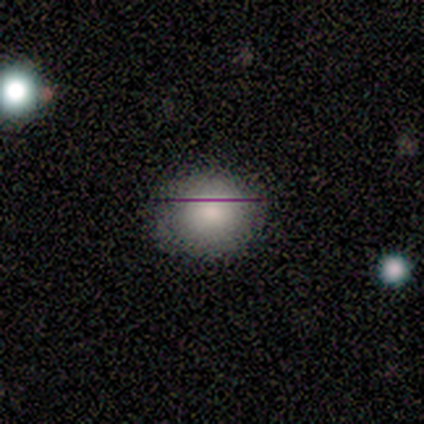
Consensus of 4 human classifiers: Smooth or featured? 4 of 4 (100%) said smooth. How rounded? 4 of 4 (100%) said round. Merging? 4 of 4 (100%) said none.